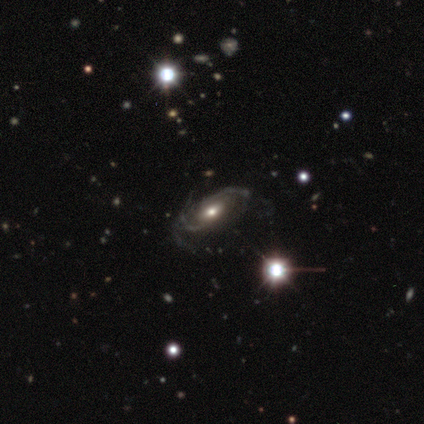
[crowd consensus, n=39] Smooth or featured? featured or disk (79%)
Edge-on disk? no (87%)
Bar? no (70%)
Spiral arms? yes (96%)
Spiral winding? tight (42%, tied with medium)
Spiral arm count? can't tell (50%)
Bulge size? moderate (56%)
Merging? none (46%)